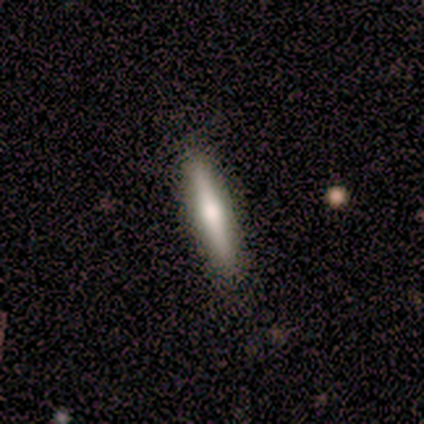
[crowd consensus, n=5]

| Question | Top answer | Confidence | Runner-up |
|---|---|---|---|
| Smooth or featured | featured or disk | 40% | tied: star or artifact (40%) |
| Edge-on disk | yes | 100% | — |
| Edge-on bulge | rounded | 100% | — |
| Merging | none | 100% | — |